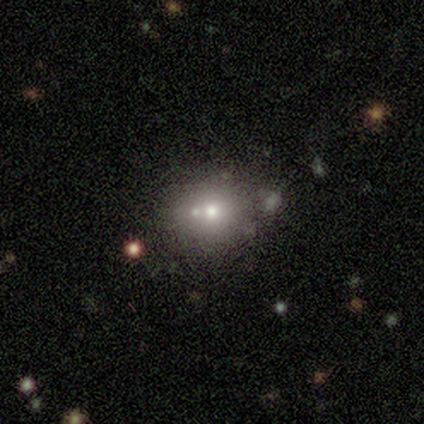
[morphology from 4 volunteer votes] smooth-or-featured: smooth: 100% | featured or disk: 0% | star or artifact: 0%
  how-rounded: round: 100% | in between: 0% | cigar-shaped: 0%
  merging: none: 75% | merger: 25% | minor disturbance: 0% | major disturbance: 0%